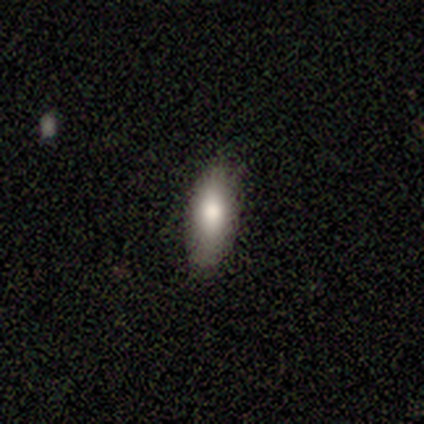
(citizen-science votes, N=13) This is likely a smooth galaxy (69%). How rounded: clearly in between (89%). Merging: clearly none (100%).